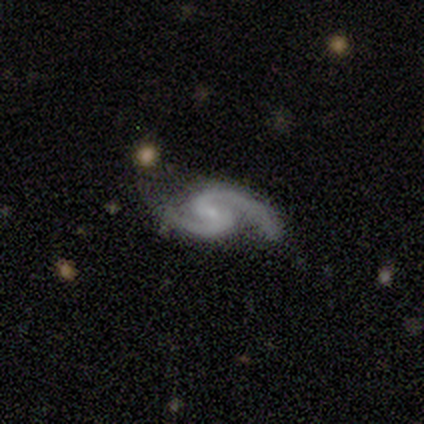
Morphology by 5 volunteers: This is clearly a featured or disk galaxy (100%). It is clearly not viewed edge-on (100%). Bar: likely no (60%). Spiral arm pattern: clearly yes (100%). Spiral arm count: clearly 2 (80%). Spiral winding: marginally medium (40%, tied with loose). Central bulge: clearly small (80%). Merging: likely none (60%).